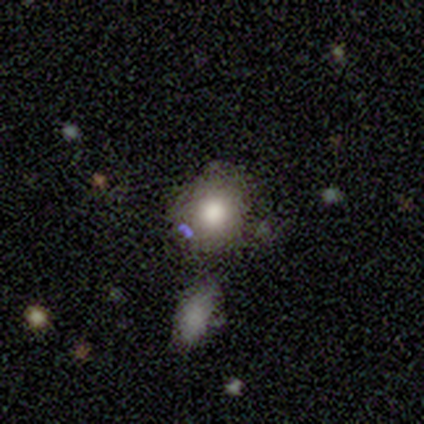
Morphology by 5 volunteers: Volunteers were most divided on "how rounded": round: 80%, in between: 20%, cigar-shaped: 0%. More confident: smooth or featured — smooth (100%); merging — none (100%).